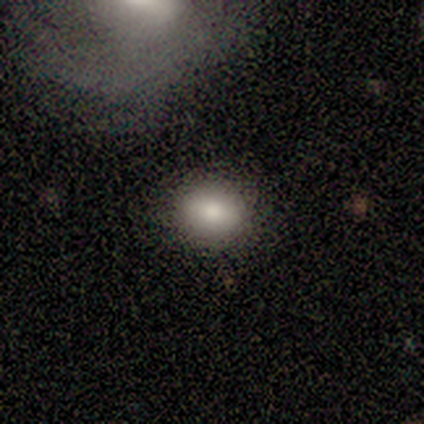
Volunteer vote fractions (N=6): This is clearly a smooth galaxy (83%). How rounded: likely in between (60%). Merging: clearly none (100%).